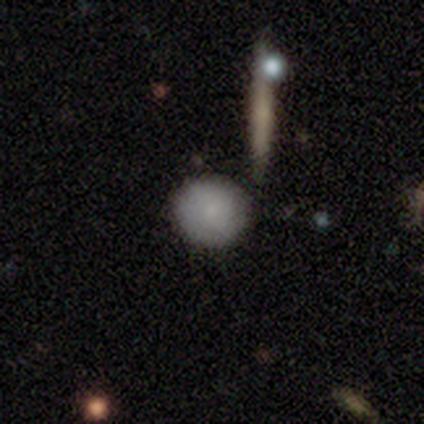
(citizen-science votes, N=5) Smooth or featured? smooth (80%)
How rounded? round (75%)
Merging? minor disturbance (75%)